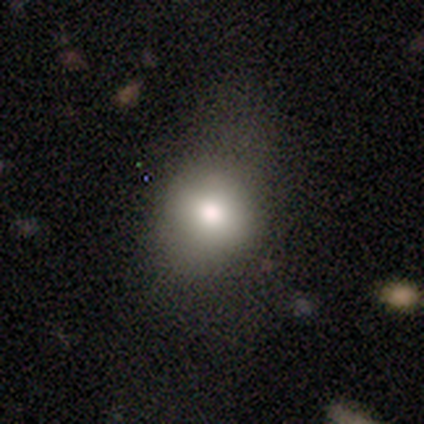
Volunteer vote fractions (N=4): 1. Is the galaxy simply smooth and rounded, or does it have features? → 75% smooth, 25% star or artifact, 0% featured or disk.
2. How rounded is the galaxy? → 67% round, 33% in between, 0% cigar-shaped.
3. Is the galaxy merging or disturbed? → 67% minor disturbance, 33% none, 0% major disturbance, 0% merger.